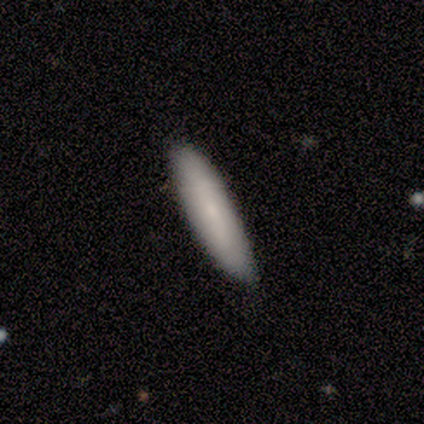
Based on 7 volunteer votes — Morphology: type=smooth (100%); roundness=cigar-shaped (86%); merging=none (86%).